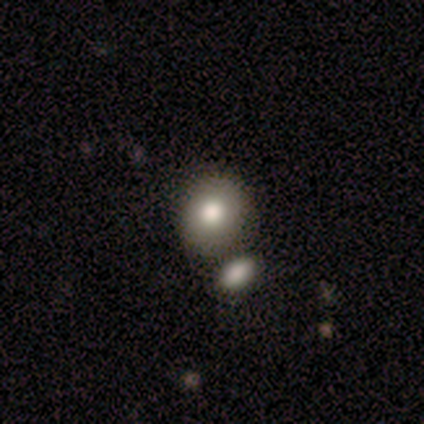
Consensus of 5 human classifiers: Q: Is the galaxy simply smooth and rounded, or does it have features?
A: smooth — 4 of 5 (80%).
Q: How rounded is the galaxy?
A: round — 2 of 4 (50%, tied with in between).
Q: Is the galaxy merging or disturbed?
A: none — 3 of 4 (75%).